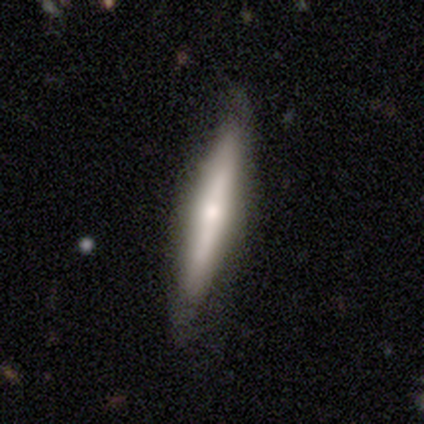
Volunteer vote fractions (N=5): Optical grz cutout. It shows a smooth galaxy with no disk features (60%) that is cigar-shaped (100%). Merging: none (80%).